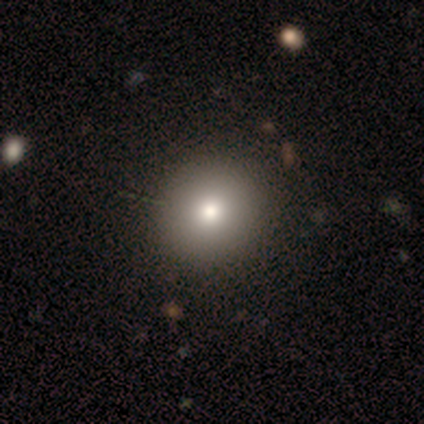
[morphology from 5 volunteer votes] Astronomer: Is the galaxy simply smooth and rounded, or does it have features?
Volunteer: smooth — 80%.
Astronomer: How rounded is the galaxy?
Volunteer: round — 100%.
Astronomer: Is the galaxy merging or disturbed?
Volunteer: none — 75%.